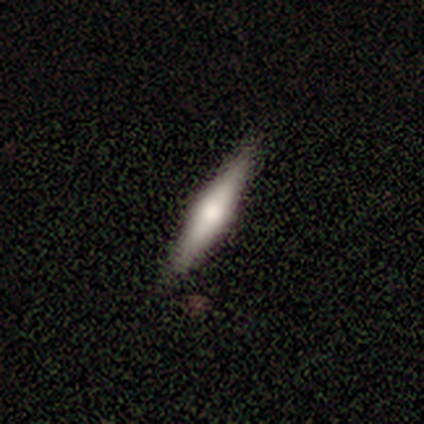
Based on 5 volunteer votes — Q: Smooth or featured?
A: featured or disk (80%); runner-up: smooth (20%)
Q: Edge-on disk?
A: yes (100%)
Q: Edge-on bulge?
A: rounded (100%)
Q: Merging?
A: none (100%)